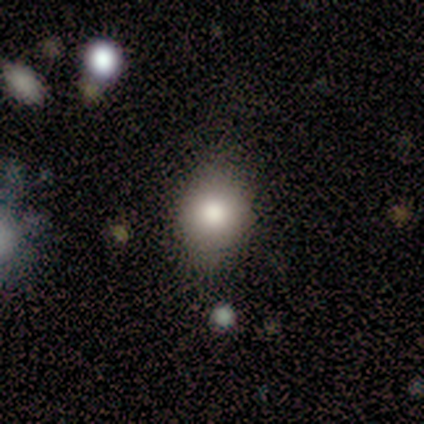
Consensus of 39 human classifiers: This appears to be a smooth galaxy with no disk features (79%) that is round (58%). Merging: none (78%).